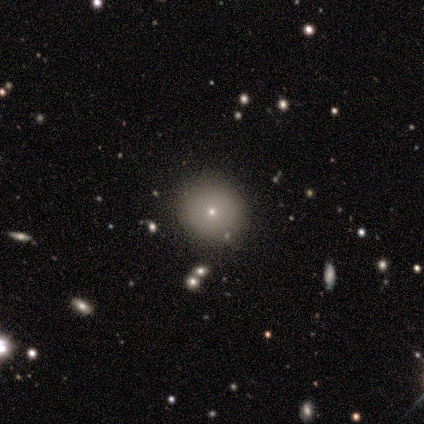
Smooth or featured: smooth — 80% (star or artifact — 20%)
How rounded: round — 100%
Merging: none — 75% (merger — 25%)